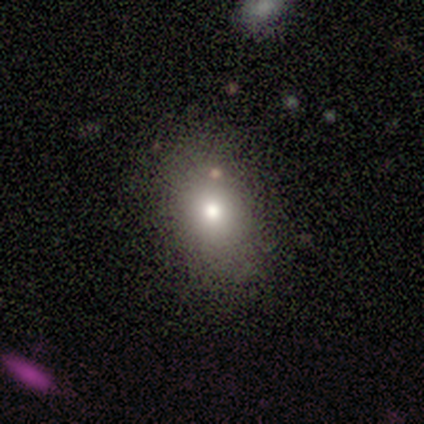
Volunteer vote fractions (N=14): Morphology: type=smooth (64%); roundness=in between (56%); merging=none (69%).